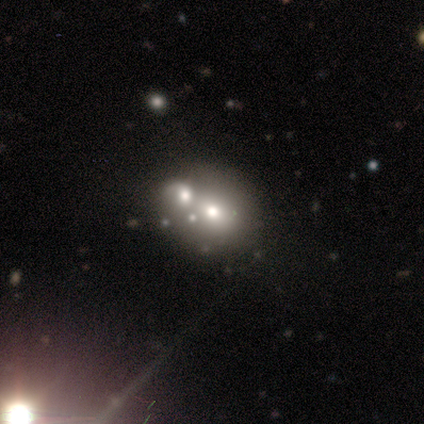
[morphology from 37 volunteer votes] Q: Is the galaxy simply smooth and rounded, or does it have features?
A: smooth — 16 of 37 (43%).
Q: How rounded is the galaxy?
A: round — 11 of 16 (69%).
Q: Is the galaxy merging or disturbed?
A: merger — 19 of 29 (66%).